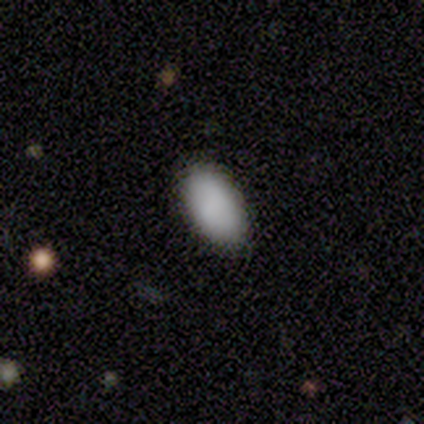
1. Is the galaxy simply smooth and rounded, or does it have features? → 92% smooth, 5% star or artifact, 3% featured or disk.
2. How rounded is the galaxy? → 97% in between, 3% cigar-shaped, 0% round.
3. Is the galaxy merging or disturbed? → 78% none, 17% minor disturbance, 6% major disturbance, 0% merger.